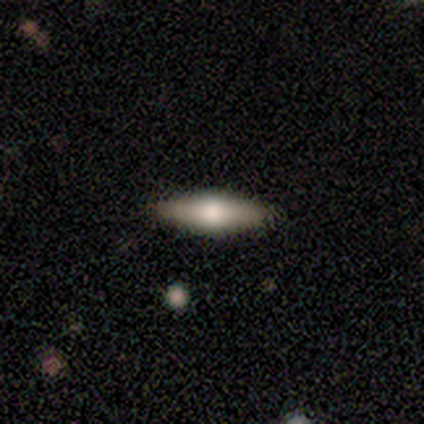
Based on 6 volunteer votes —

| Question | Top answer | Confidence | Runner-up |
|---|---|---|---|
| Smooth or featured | featured or disk | 50% | smooth (33%) |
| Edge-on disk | yes | 100% | — |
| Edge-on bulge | rounded | 100% | — |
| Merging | none | 100% | — |